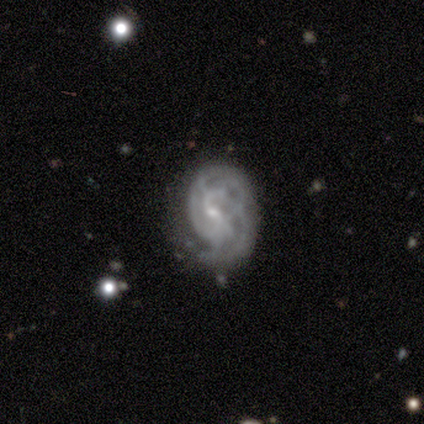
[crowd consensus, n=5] smooth-or-featured: featured or disk: 100% | smooth: 0% | star or artifact: 0%
  disk-edge-on: no: 100% | yes: 0%
    bar: weak: 60% | no: 40% | strong: 0%
    has-spiral-arms: yes: 100% | no: 0%
      spiral-winding: tight: 40% (tied) | medium: 40% (tied) | loose: 20%
      spiral-arm-count: can't tell: 60% | 2: 20% | more than 4: 20% | 1: 0% | 3: 0% | 4: 0%
    bulge-size: small: 80% | none: 20% | dominant: 0% | large: 0% | moderate: 0%
  merging: none: 60% | major disturbance: 20% | merger: 20% | minor disturbance: 0%